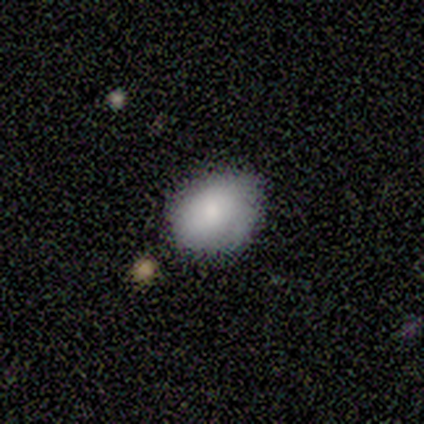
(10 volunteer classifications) A smooth galaxy with no disk features (90%) that is in between round and cigar-shaped (89%). Merging: none (70%).